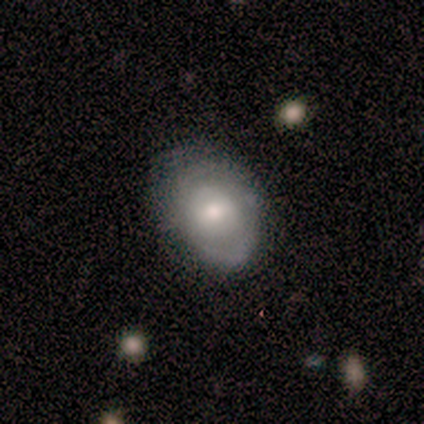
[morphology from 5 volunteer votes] Overall: smooth (100%). How rounded: in between (80%). Merging: none (80%).